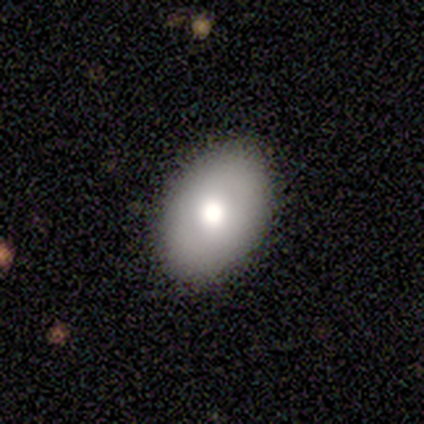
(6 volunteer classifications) Q: Smooth or featured?
A: smooth (50%); runner-up: featured or disk (33%)
Q: How rounded?
A: in between (100%)
Q: Merging?
A: none (80%); runner-up: minor disturbance (20%)